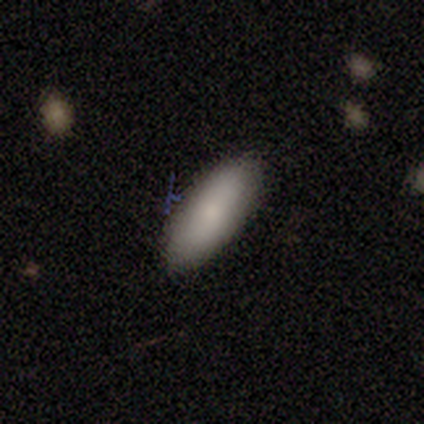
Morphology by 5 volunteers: Smooth or featured? smooth (80%)
How rounded? in between (100%)
Merging? none (75%)